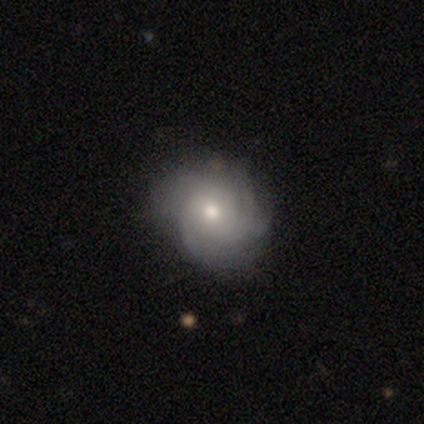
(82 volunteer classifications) Morphology: type=featured or disk (49%); edge-on=no (98%); bar=no (85%); spiral arms=yes (90%); winding=tight (54%); arm count=can't tell (57%); bulge=moderate (64%); merging=none (64%).